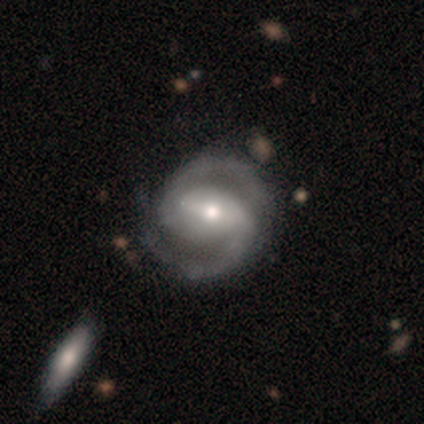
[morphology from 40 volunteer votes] smooth_or_featured: featured or disk (p=0.95) [alt: star or artifact p=0.05]
disk_edge_on: no (p=0.97) [alt: yes p=0.03]
bar: strong (p=0.62) [alt: weak p=0.19]
has_spiral_arms: yes (p=0.97) [alt: no p=0.03]
spiral_winding: medium (p=0.56) [alt: tight p=0.39]
spiral_arm_count: 2 (p=1.00)
bulge_size: moderate (p=0.68) [alt: small p=0.22]
merging: none (p=0.55) [alt: minor disturbance p=0.21]